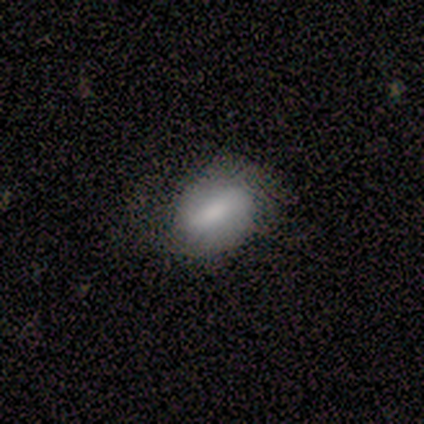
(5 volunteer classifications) Q: Smooth or featured?
A: smooth (60%); runner-up: featured or disk (40%)
Q: How rounded?
A: in between (100%)
Q: Merging?
A: none (40%); tied with: minor disturbance (40%)